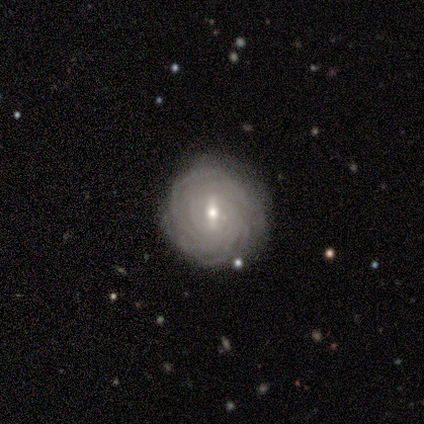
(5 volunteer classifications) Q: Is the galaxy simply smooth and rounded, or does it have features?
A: featured or disk — 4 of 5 (80%).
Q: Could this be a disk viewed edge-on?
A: no — 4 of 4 (100%).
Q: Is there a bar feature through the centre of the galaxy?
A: weak — 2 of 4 (50%, tied with no).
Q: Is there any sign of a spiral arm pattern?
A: yes — 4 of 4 (100%).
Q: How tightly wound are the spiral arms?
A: tight — 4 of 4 (100%).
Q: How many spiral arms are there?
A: more than 4 — 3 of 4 (75%).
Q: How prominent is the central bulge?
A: moderate — 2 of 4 (50%, tied with small).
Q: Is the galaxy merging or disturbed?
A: none — 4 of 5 (80%).